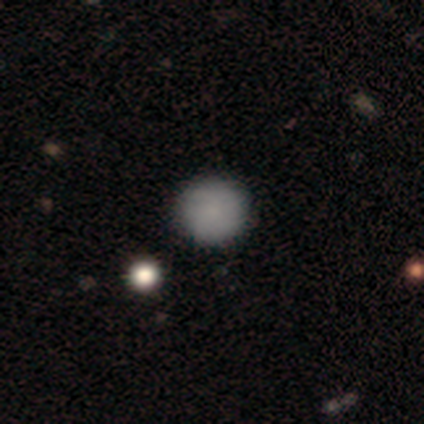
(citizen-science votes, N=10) Q: Smooth or featured?
A: smooth (70%); runner-up: featured or disk (20%)
Q: How rounded?
A: round (100%)
Q: Merging?
A: none (89%); runner-up: major disturbance (11%)